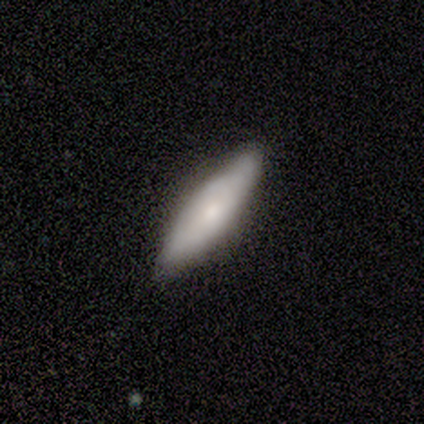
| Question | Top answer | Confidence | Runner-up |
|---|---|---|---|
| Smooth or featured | featured or disk | 60% | smooth (40%) |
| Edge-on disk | yes | 100% | — |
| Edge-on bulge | rounded | 100% | — |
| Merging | none | 80% | minor disturbance (20%) |